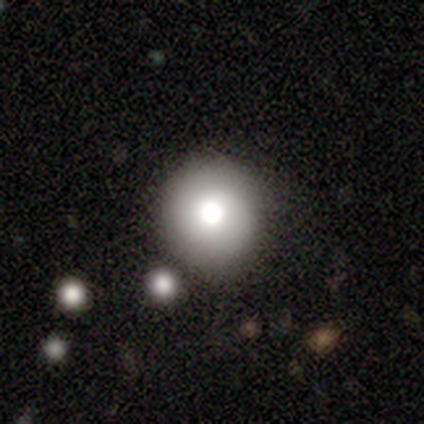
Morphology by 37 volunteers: smooth 73%, featured or disk 14%, star or artifact 14%. Down the decision tree: how rounded — round (100%); merging — none (84%).